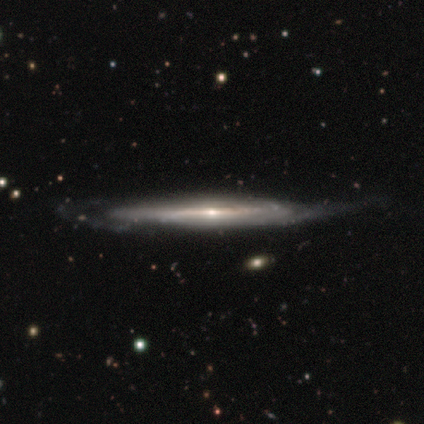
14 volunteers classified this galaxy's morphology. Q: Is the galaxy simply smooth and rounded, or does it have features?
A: featured or disk — 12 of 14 (86%).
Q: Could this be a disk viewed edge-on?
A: yes — 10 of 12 (83%).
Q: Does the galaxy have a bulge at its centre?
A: rounded — 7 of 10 (70%).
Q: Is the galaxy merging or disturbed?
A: none — 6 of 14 (43%).